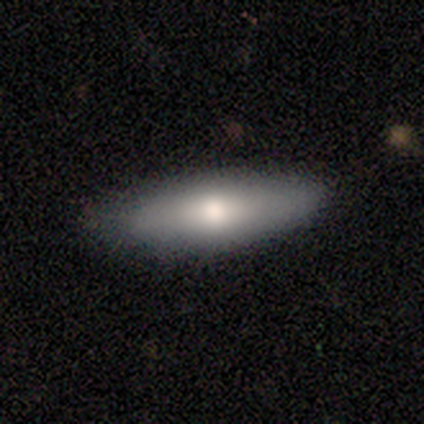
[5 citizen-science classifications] This appears to be a smooth galaxy with no disk features (80%) that is in between round and cigar-shaped (75%). Merging: none (75%).